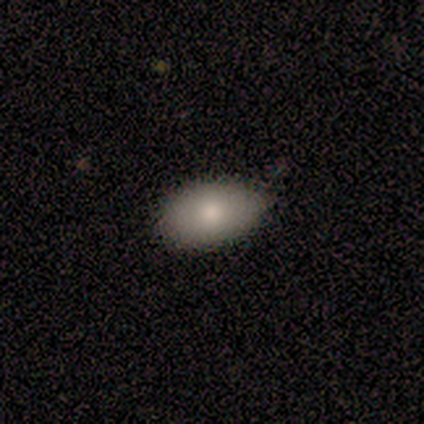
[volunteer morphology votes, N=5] Volunteers were most divided on "merging": none: 60%, minor disturbance: 40%, major disturbance: 0%, merger: 0%. More confident: smooth or featured — smooth (100%); how rounded — in between (100%).